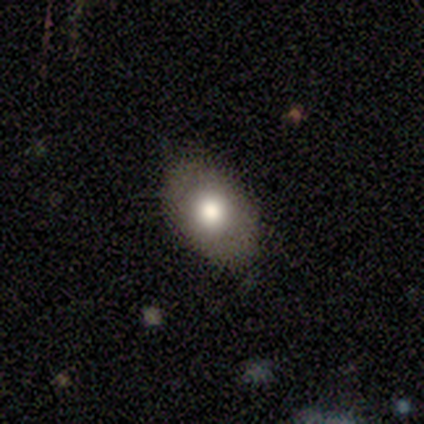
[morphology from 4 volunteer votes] Q: Smooth or featured?
A: smooth (75%); runner-up: featured or disk (25%)
Q: How rounded?
A: round (67%); runner-up: in between (33%)
Q: Merging?
A: none (75%); runner-up: minor disturbance (25%)